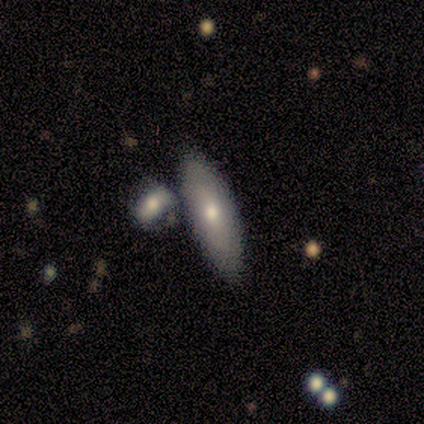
A smooth galaxy with no disk features (100%) that is in between round and cigar-shaped (100%). Merging: none (80%).